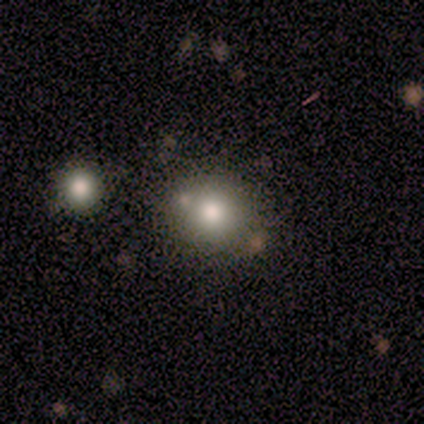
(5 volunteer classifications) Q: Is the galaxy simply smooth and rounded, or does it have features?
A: smooth — 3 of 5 (60%).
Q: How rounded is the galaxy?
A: round — 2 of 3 (67%).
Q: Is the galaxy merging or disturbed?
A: none — 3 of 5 (60%).